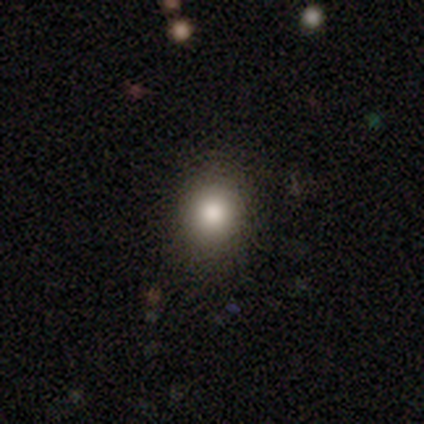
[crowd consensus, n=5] Overall: smooth (80%). How rounded: round (75%). Merging: none (75%).